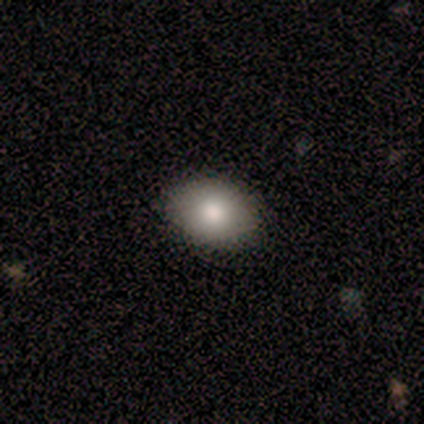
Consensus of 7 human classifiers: smooth-or-featured: smooth: 57% | star or artifact: 29% | featured or disk: 14%
  how-rounded: round: 50% (tied) | in between: 50% (tied) | cigar-shaped: 0%
  merging: none: 100% | minor disturbance: 0% | major disturbance: 0% | merger: 0%